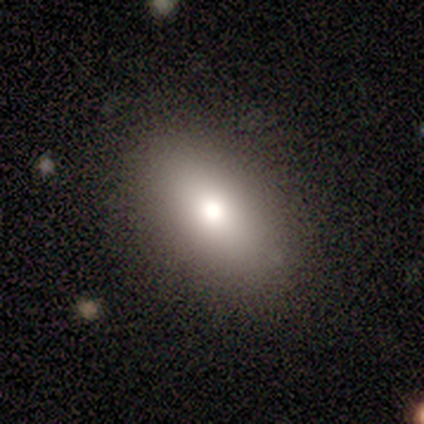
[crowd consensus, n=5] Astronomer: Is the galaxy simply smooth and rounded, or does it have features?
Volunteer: smooth — 100%.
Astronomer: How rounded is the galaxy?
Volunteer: in between — 100%.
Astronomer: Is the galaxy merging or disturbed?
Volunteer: none — 100%.